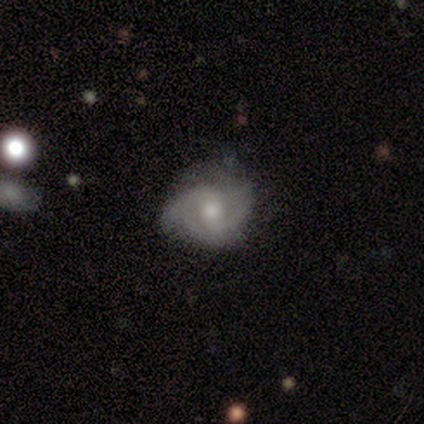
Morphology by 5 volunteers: A featured or disk galaxy (60%) with no bar (67%), 2 (67%) tight (33%, tied with medium and loose) spiral arms (100%) and a large central bulge (33%, tied with moderate and small). Merging: minor disturbance (75%).